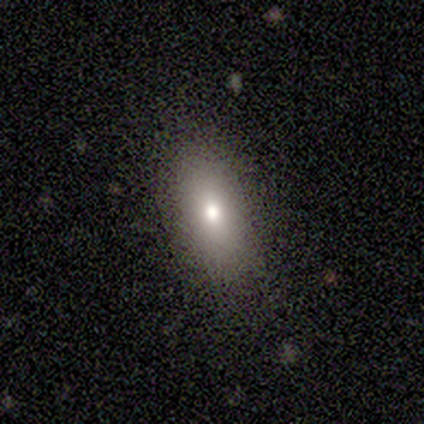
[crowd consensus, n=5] smooth-or-featured: smooth: 80% | featured or disk: 20% | star or artifact: 0%
  how-rounded: in between: 75% | cigar-shaped: 25% | round: 0%
  merging: none: 80% | minor disturbance: 20% | major disturbance: 0% | merger: 0%